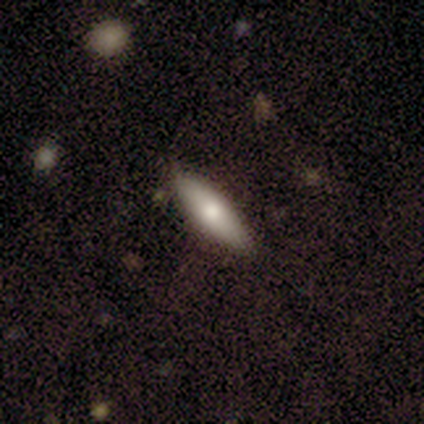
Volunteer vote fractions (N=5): Volunteers were most divided on "how rounded": in between: 80%, cigar-shaped: 20%, round: 0%. More confident: smooth or featured — smooth (100%); merging — none (100%).